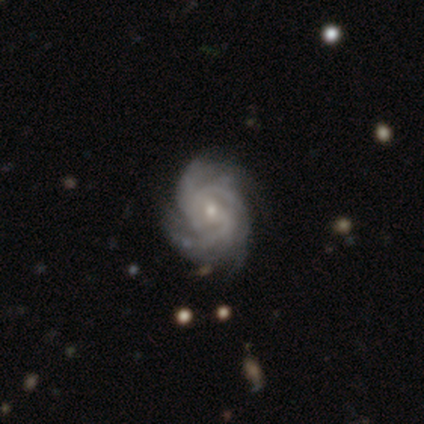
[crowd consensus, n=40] smooth-or-featured: featured or disk: 100% | smooth: 0% | star or artifact: 0%
  disk-edge-on: no: 98% | yes: 2%
    bar: no: 64% | weak: 28% | strong: 8%
    has-spiral-arms: yes: 100% | no: 0%
      spiral-winding: tight: 56% | medium: 33% | loose: 10%
      spiral-arm-count: 3: 28% | 4: 26% | can't tell: 23% | 2: 15% | more than 4: 8% | 1: 0%
    bulge-size: small: 62% | moderate: 36% | none: 3% | dominant: 0% | large: 0%
  merging: none: 52% | minor disturbance: 12% | major disturbance: 5% | merger: 5%